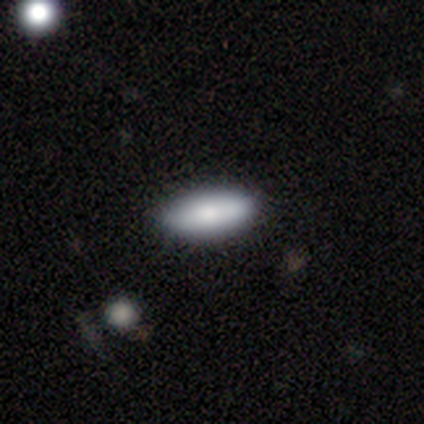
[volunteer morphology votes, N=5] smooth_or_featured: smooth (p=1.00)
how_rounded: in between (p=0.80) [alt: cigar-shaped p=0.20]
merging: none (p=1.00)